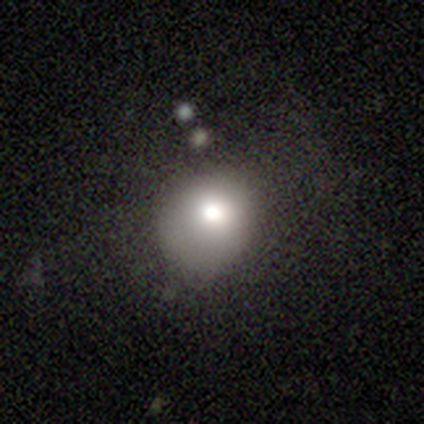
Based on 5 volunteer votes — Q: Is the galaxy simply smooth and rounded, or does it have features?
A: smooth — 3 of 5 (60%).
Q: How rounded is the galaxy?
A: round — 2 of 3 (67%).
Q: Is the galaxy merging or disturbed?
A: none — 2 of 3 (67%).